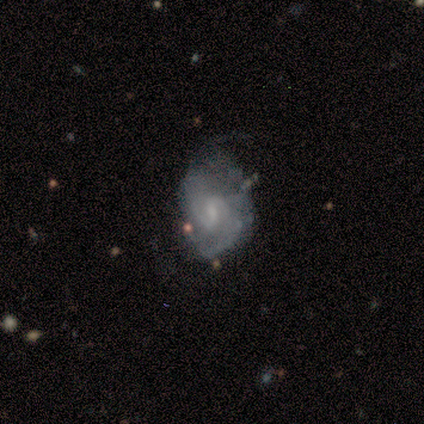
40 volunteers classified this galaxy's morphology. Overall: featured or disk (85%). Edge-on disk: no (100%). Bar: weak (71%). Spiral arms: yes (97%). Spiral arm count: 2 (76%). Spiral winding: medium (55%; tight 33%). Bulge size: small (71%). Merging: none (35%, tied with minor disturbance).